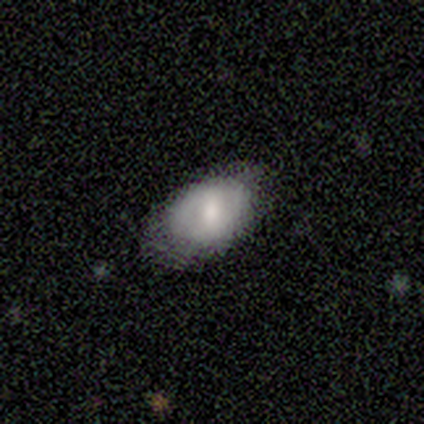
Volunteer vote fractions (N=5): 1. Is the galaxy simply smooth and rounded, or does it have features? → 80% smooth, 20% featured or disk, 0% star or artifact.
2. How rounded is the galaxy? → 100% in between, 0% round, 0% cigar-shaped.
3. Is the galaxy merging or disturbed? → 80% none, 20% minor disturbance, 0% major disturbance, 0% merger.